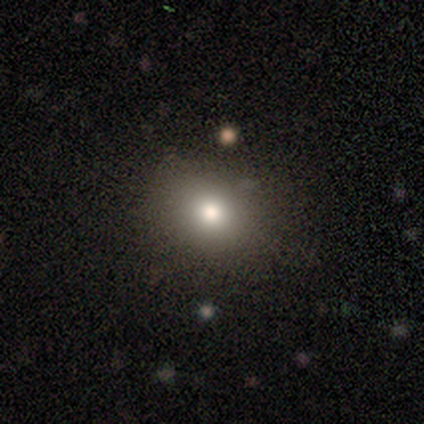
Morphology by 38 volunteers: Volunteers were most divided on "how rounded": round: 74%, in between: 26%, cigar-shaped: 0%. More confident: merging — none (83%); smooth or featured — smooth (82%).